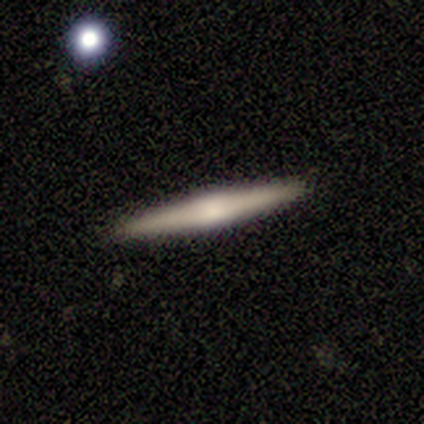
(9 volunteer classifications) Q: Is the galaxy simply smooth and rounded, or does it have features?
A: smooth — 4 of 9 (44%, tied with featured or disk).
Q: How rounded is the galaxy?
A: cigar-shaped — 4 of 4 (100%).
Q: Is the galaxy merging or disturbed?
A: none — 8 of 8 (100%).